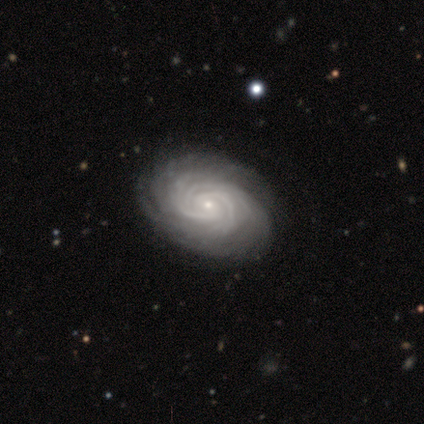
Volunteers were most divided on "bar": weak: 50%, strong: 25%, no: 25%. More confident: smooth or featured — featured or disk (100%); edge-on disk — no (100%); spiral arms — yes (100%); merging — none (100%); spiral winding — tight (75%); bulge size — small (75%); spiral arm count — more than 4 (50%).